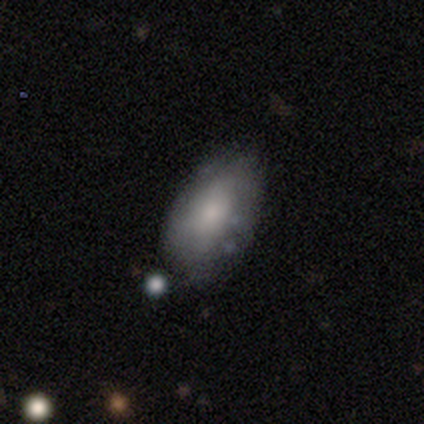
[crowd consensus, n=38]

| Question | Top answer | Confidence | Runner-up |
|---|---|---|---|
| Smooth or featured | smooth | 58% | featured or disk (37%) |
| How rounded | in between | 91% | round (9%) |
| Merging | none | 53% | minor disturbance (44%) |